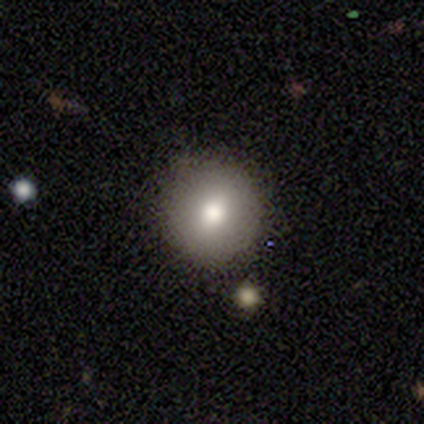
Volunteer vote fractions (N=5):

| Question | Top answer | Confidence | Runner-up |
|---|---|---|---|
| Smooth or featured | smooth | 100% | — |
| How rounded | round | 100% | — |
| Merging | none | 100% | — |